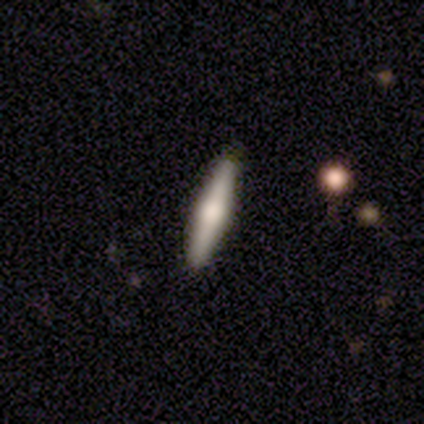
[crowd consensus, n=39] Volunteers were most divided on "smooth or featured": featured or disk: 62%, smooth: 38%, star or artifact: 0%. More confident: edge-on disk — yes (96%); merging — none (95%); edge-on bulge — rounded (87%).